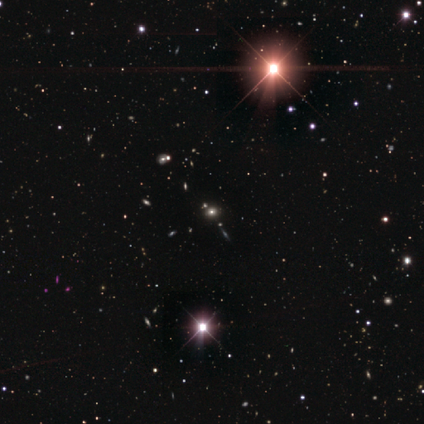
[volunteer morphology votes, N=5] Smooth or featured? 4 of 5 (80%) said star or artifact.